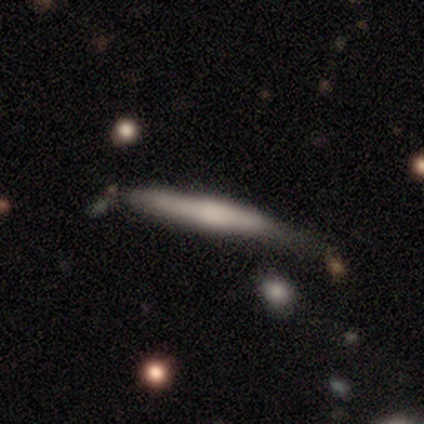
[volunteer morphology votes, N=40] type=smooth (72%); roundness=cigar-shaped (97%); merging=minor disturbance (46%).